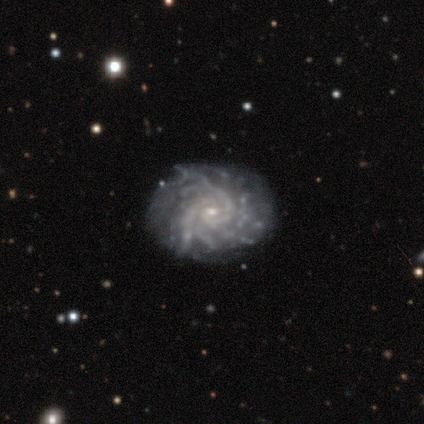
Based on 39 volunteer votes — Smooth or featured? featured or disk (92%)
Edge-on disk? no (97%)
Bar? no (77%)
Spiral arms? yes (94%)
Spiral winding? tight (70%)
Spiral arm count? can't tell (42%)
Bulge size? small (80%)
Merging? none (76%)